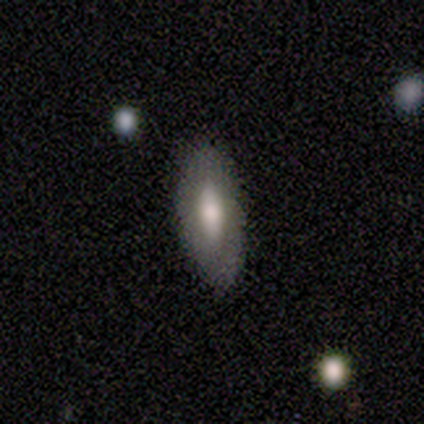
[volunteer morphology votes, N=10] A smooth galaxy with no disk features (70%) that is in between round and cigar-shaped (100%). Merging: none (100%).